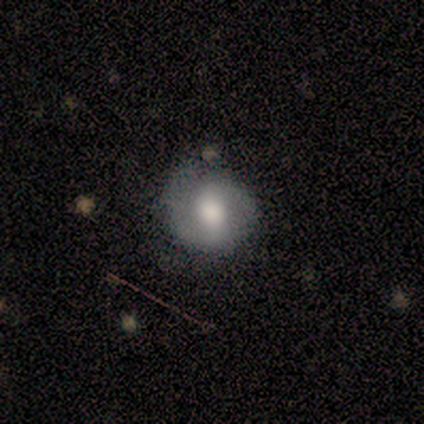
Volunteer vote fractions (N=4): Volunteers were most divided on "smooth or featured" (2-way tie): smooth: 50%, featured or disk: 50%, star or artifact: 0%; "how rounded" (2-way tie): round: 50%, in between: 50%, cigar-shaped: 0%. More confident: merging — none (75%).